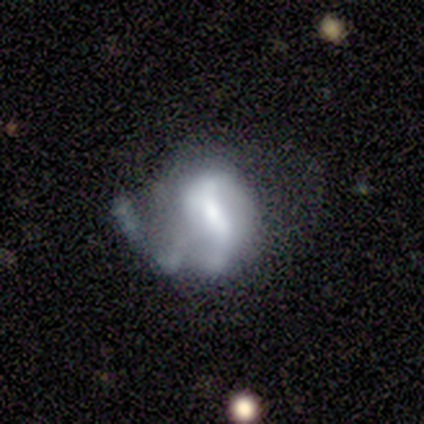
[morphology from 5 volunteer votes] Volunteers were most divided on "smooth or featured" (2-way tie): smooth: 40%, featured or disk: 40%, star or artifact: 20%. More confident: how rounded — in between (100%); merging — none (50%).